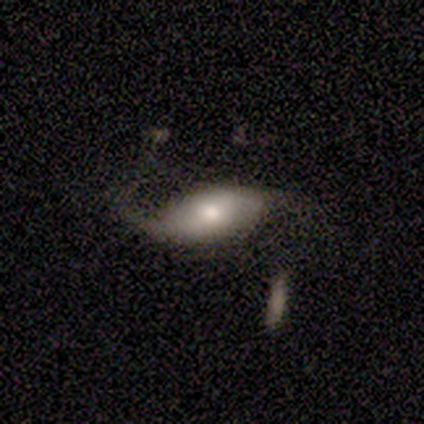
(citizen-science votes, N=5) Volunteers were most divided on "merging": minor disturbance: 50%, none: 25%, major disturbance: 25%, merger: 0%. More confident: bar — weak (100%); spiral arms — yes (100%); spiral winding — loose (100%); spiral arm count — 1 (100%); bulge size — moderate (100%); edge-on disk — no (67%); smooth or featured — featured or disk (60%).